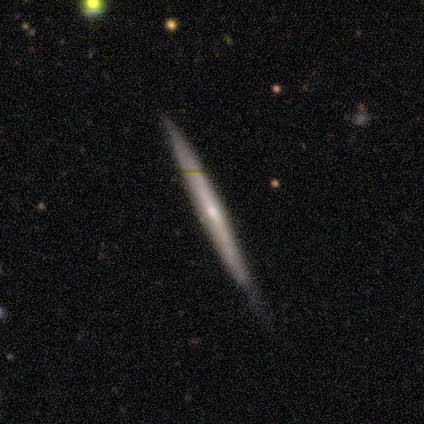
Overall: featured or disk (73%). Edge-on disk: yes (100%). Edge-on bulge: none (48%; rounded 42%). Merging: none (71%).